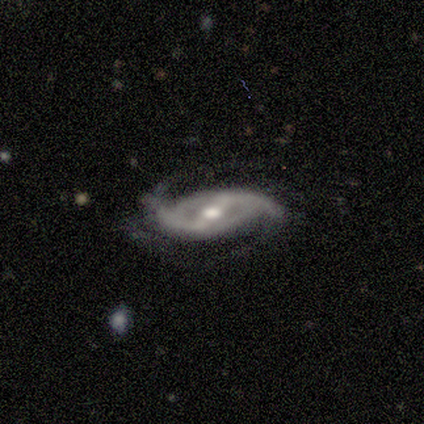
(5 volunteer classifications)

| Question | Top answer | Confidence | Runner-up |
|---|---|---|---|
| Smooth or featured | featured or disk | 100% | — |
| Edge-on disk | no | 100% | — |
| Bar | strong | 60% | weak (40%) |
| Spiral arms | yes | 100% | — |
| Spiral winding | medium | 40% | tied: loose (40%) |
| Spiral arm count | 2 | 100% | — |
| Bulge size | moderate | 80% | small (20%) |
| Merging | none | 100% | — |